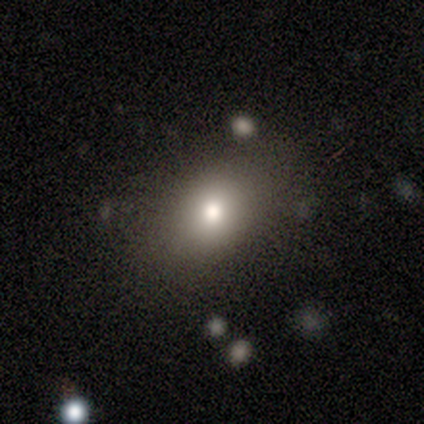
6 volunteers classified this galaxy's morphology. Smooth or featured? smooth (83%)
How rounded? round (60%)
Merging? none (83%)